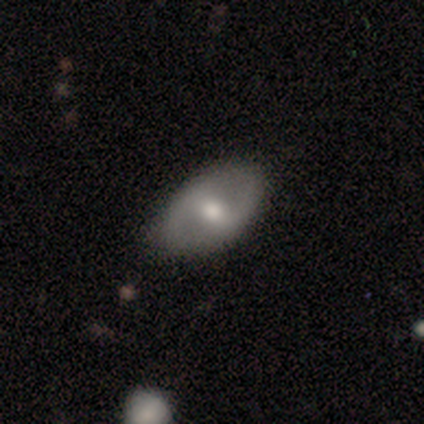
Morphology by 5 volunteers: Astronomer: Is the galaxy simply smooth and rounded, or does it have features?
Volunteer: featured or disk — 80%.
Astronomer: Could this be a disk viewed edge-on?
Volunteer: no — 100%.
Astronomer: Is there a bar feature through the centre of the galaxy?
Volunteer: weak — 75%.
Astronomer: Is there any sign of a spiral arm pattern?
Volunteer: no — 75%.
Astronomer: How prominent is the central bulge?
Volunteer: moderate — 100%.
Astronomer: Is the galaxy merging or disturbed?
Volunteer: none — 100%.